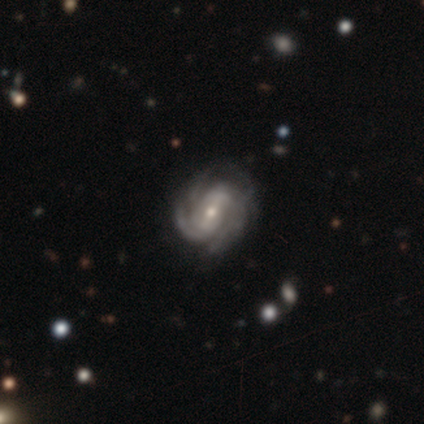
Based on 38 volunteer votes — This appears to be a featured or disk galaxy (89%) with a weak bar (41%), 4 (36%) tight (55%) spiral arms (97%) and a small central bulge (53%). Merging: none (65%).